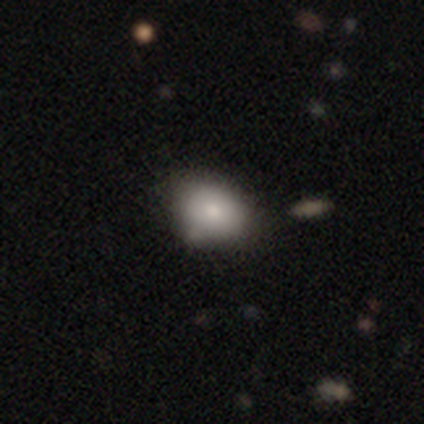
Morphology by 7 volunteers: Smooth or featured? 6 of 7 (86%) said smooth. How rounded? 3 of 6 (50%, tied with in between) said round. Merging? 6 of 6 (100%) said none.